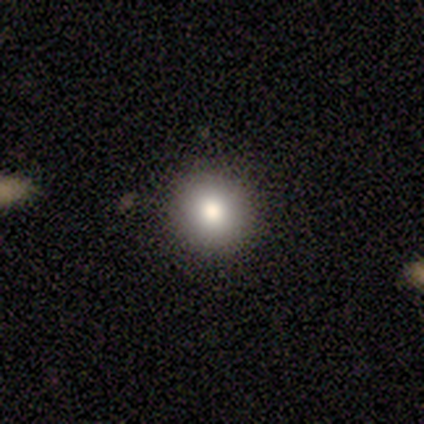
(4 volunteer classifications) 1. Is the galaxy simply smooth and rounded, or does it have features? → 100% smooth, 0% featured or disk, 0% star or artifact.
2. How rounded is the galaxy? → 100% round, 0% in between, 0% cigar-shaped.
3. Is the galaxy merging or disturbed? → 75% none, 25% minor disturbance, 0% major disturbance, 0% merger.